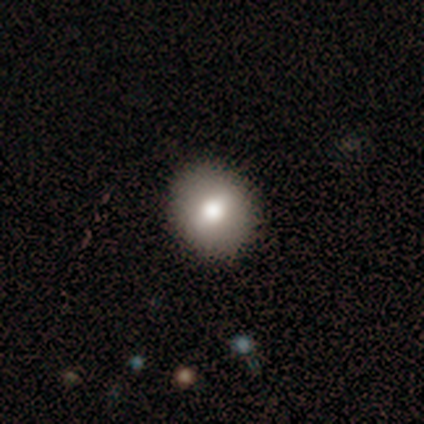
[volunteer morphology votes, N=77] This appears to be a smooth galaxy with no disk features (77%) that is round (80%). Merging: none (49%).